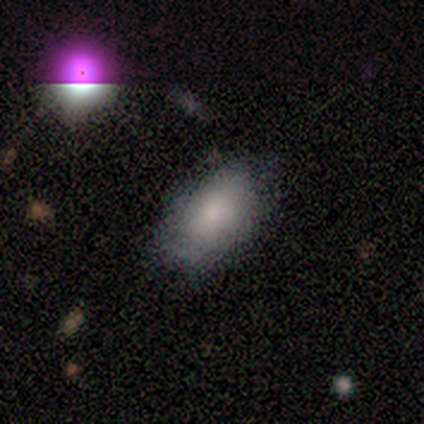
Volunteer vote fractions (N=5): smooth-or-featured: smooth: 80% | star or artifact: 20% | featured or disk: 0%
  how-rounded: in between: 75% | round: 25% | cigar-shaped: 0%
  merging: none: 75% | major disturbance: 25% | minor disturbance: 0% | merger: 0%